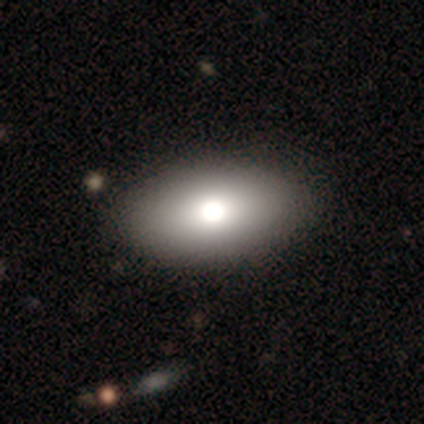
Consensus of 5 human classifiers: A smooth galaxy with no disk features (100%) that is in between round and cigar-shaped (100%). Merging: none (100%).